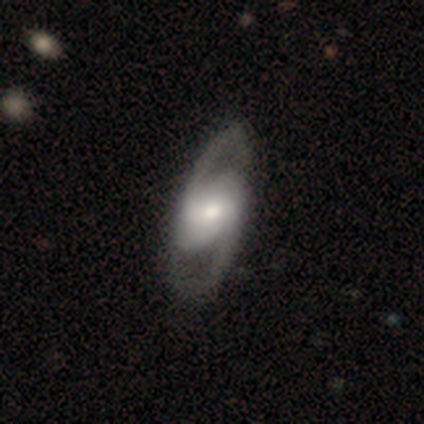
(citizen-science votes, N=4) Smooth or featured? 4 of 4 (100%) said featured or disk. Edge-on disk? 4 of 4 (100%) said no. Bar? 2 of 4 (50%) said weak. Spiral arms? 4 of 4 (100%) said yes. Spiral winding? 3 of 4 (75%) said medium. Spiral arm count? 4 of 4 (100%) said 2. Bulge size? 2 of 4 (50%) said moderate. Merging? 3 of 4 (75%) said none.